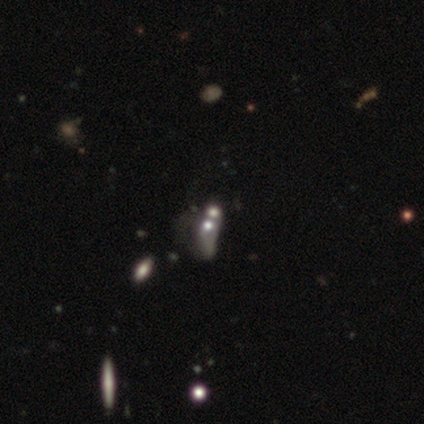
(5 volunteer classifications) Overall: featured or disk (60%; smooth 20%). Edge-on disk: no (100%). Bar: no (100%). Spiral arms: no (100%). Bulge size: moderate (67%; none 33%). Merging: merger (100%).